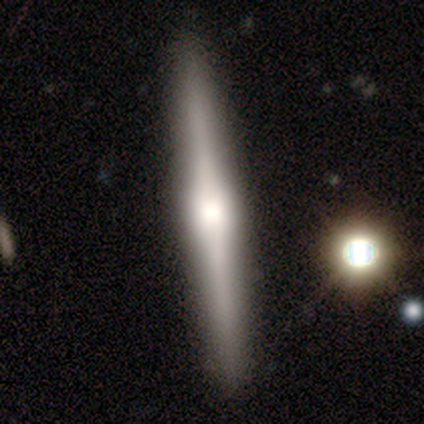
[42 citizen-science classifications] Smooth or featured: featured or disk — 62% (smooth — 33%)
Edge-on disk: yes — 100%
Edge-on bulge: rounded — 77% (boxy — 19%)
Merging: none — 95% (minor disturbance — 5%)